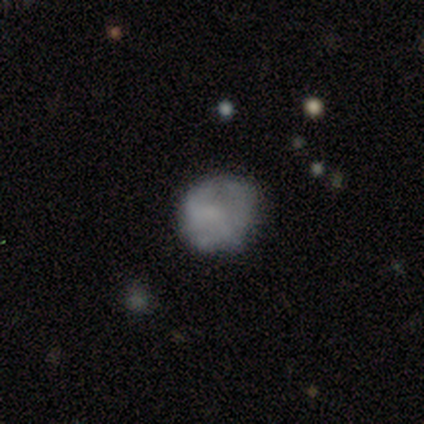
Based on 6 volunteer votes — smooth_or_featured: smooth (p=0.50) [alt: featured or disk p=0.33]
how_rounded: round (p=1.00)
merging: minor disturbance (p=0.60) [alt: none p=0.40]